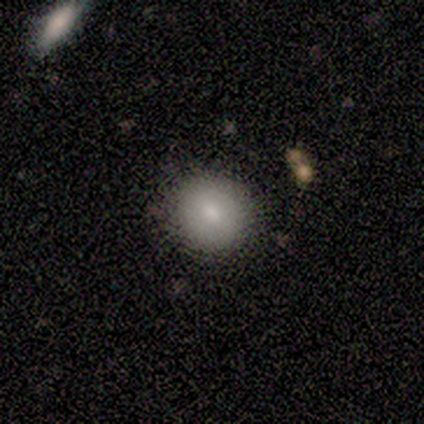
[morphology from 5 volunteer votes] type=smooth (100%); roundness=round (60%); merging=none (100%).